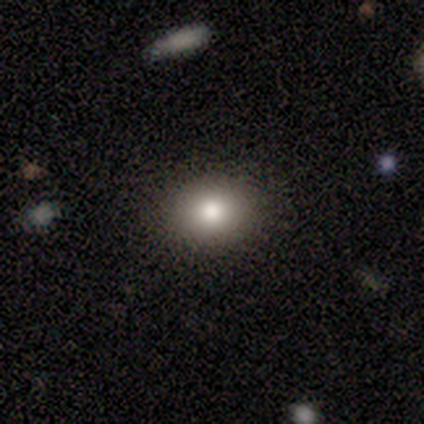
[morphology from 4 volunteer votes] smooth-or-featured: smooth: 75% | star or artifact: 25% | featured or disk: 0%
  how-rounded: round: 100% | in between: 0% | cigar-shaped: 0%
  merging: minor disturbance: 67% | none: 33% | major disturbance: 0% | merger: 0%